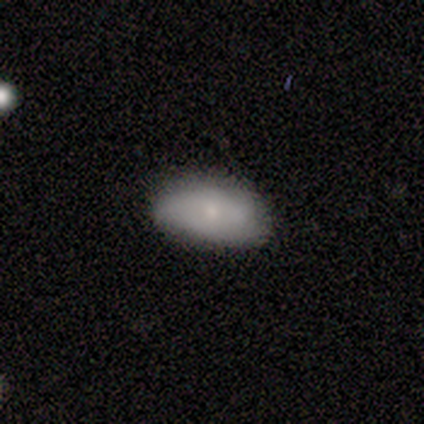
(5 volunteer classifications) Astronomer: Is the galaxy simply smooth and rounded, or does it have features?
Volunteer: smooth — 80%.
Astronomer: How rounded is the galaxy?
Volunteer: in between — 75%.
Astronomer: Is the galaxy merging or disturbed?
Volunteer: none — 50%, tied with minor disturbance at 50%.